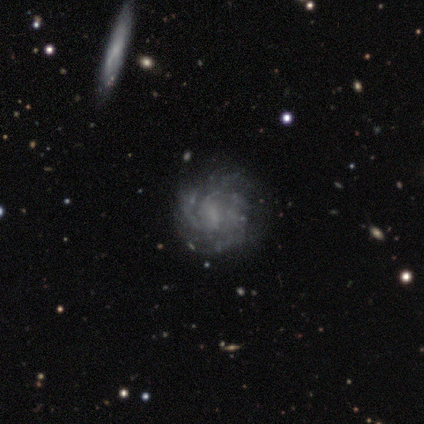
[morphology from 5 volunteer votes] Smooth or featured? 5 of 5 (100%) said featured or disk. Edge-on disk? 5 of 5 (100%) said no. Bar? 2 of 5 (40%, tied with no) said weak. Spiral arms? 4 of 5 (80%) said yes. Spiral winding? 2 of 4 (50%, tied with medium) said tight. Spiral arm count? 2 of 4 (50%, tied with can't tell) said 3. Bulge size? 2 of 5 (40%, tied with none) said small. Merging? 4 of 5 (80%) said none.